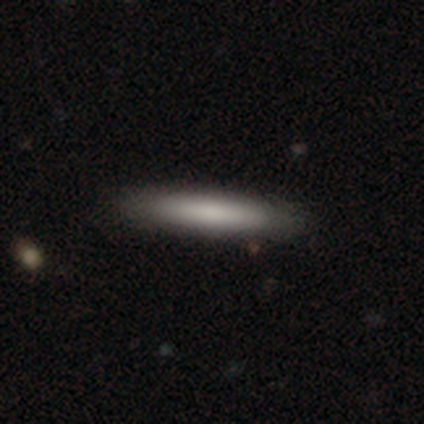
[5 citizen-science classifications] Smooth or featured? 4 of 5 (80%) said smooth. How rounded? 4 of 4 (100%) said cigar-shaped. Merging? 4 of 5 (80%) said none.